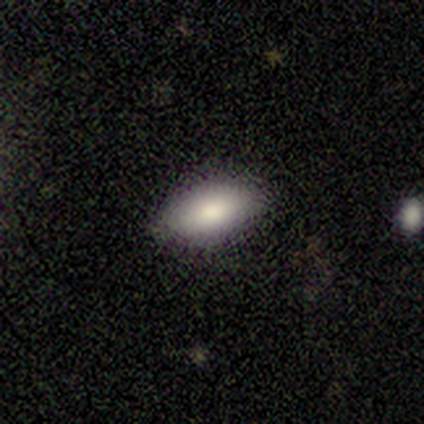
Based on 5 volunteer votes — Volunteers were most divided on "how rounded": in between: 75%, cigar-shaped: 25%, round: 0%. More confident: merging — none (100%); smooth or featured — smooth (80%).